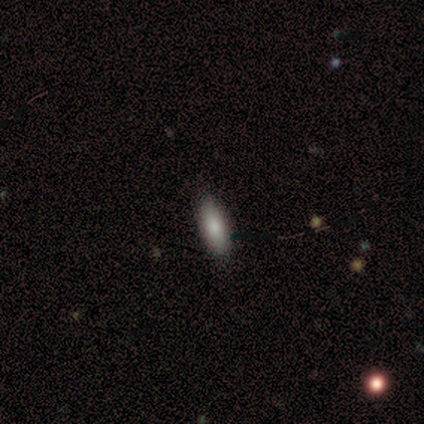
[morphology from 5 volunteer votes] A smooth galaxy with no disk features (100%) that is in between round and cigar-shaped (80%).

Vote fractions:
- Smooth or featured? smooth: 100% / featured or disk: 0% / star or artifact: 0%
- How rounded? in between: 80% / cigar-shaped: 20% / round: 0%
- Merging? none: 100% / minor disturbance: 0% / major disturbance: 0% / merger: 0%